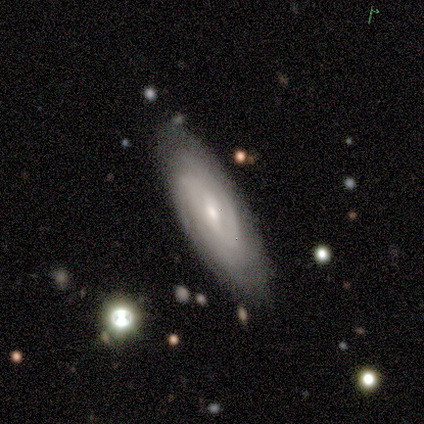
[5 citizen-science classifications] Overall: featured or disk (60%; smooth 40%). Edge-on disk: no (100%). Bar: weak (100%). Spiral arms: yes (100%). Spiral arm count: 2 (33%, tied with 3 and can't tell). Spiral winding: tight (33%, tied with medium and loose). Bulge size: small (100%). Merging: none (100%).